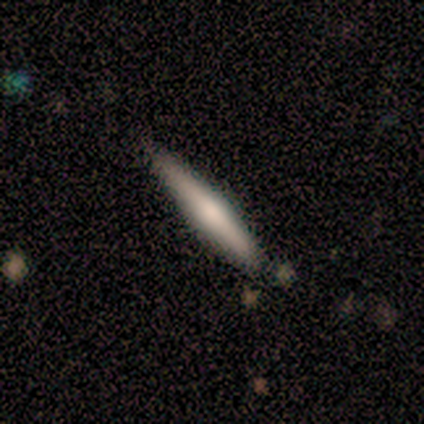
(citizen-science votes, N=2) Smooth or featured?
  - smooth: 50% * (tied)
  - featured or disk: 50% * (tied)
  - star or artifact: 0%
How rounded?
  - in between: 100% *
  - round: 0%
  - cigar-shaped: 0%
Merging?
  - none: 100% *
  - minor disturbance: 0%
  - major disturbance: 0%
  - merger: 0%